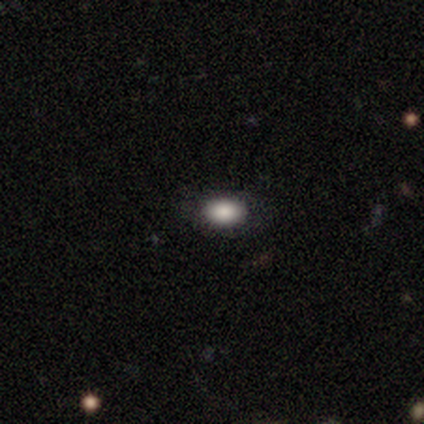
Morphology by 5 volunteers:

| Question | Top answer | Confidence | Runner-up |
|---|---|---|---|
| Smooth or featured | smooth | 80% | featured or disk (20%) |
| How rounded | in between | 100% | — |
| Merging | none | 100% | — |